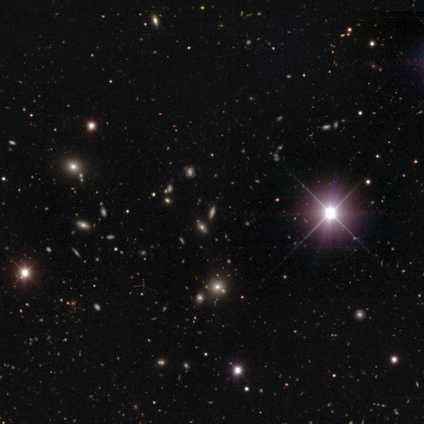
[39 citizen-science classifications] smooth-or-featured: star or artifact: 74% | featured or disk: 18% | smooth: 8%